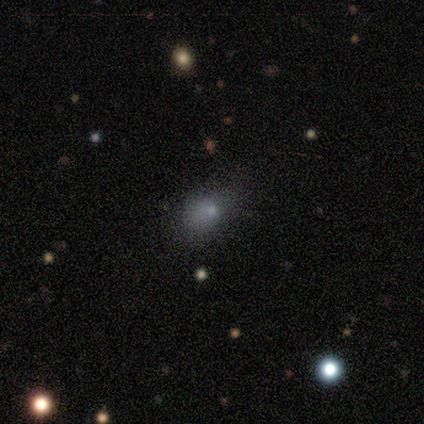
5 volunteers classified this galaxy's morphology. Overall: featured or disk (40%, tied with star or artifact). Edge-on disk: no (100%). Bar: no (100%). Spiral arms: no (100%). Bulge size: small (100%). Merging: none (33%, tied with minor disturbance and major disturbance).